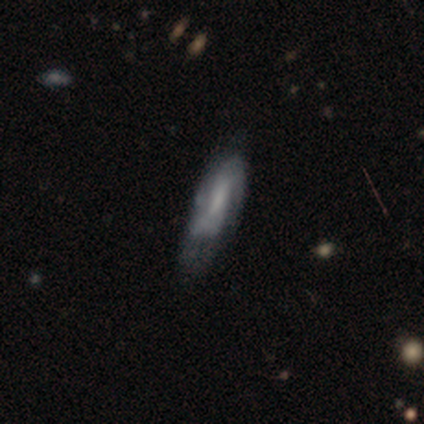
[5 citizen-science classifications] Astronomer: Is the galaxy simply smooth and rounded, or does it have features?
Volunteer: smooth — 60%.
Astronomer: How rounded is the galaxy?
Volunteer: in between — 67%.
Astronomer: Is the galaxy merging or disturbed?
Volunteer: none — 75%.